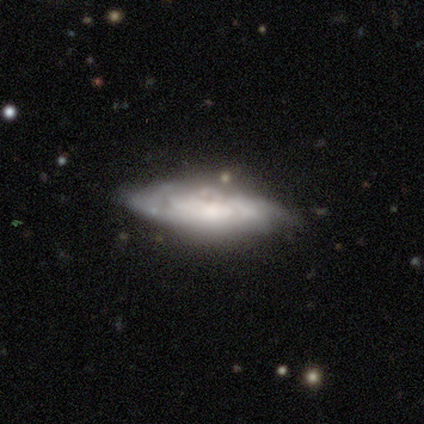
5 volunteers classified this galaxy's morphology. Smooth or featured: featured or disk — 100%
Edge-on disk: no — 80% (yes — 20%)
Bar: no — 100%
Spiral arms: yes — 75% (no — 25%)
Spiral winding: tight — 67% (medium — 33%)
Spiral arm count: can't tell — 67% (2 — 33%)
Bulge size: dominant — 50% (small — 25%)
Merging: none — 60% (minor disturbance — 40%)